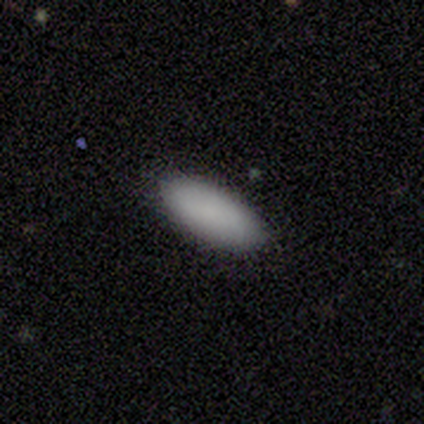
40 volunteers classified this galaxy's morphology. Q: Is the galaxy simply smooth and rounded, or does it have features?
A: smooth — 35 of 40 (88%).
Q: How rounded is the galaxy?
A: in between — 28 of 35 (80%).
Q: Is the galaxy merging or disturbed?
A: none — 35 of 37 (95%).